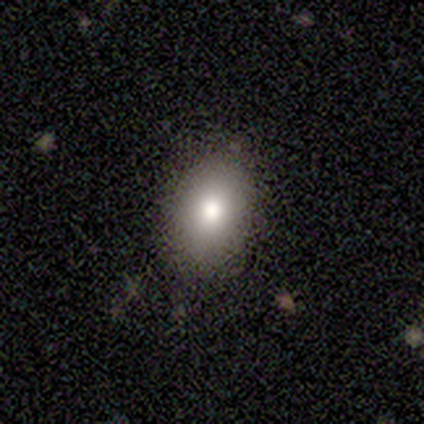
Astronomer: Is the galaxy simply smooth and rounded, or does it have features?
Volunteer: smooth — 100%.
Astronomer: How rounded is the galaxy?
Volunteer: in between — 80%.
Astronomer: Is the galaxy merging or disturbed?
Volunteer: none — 80%.